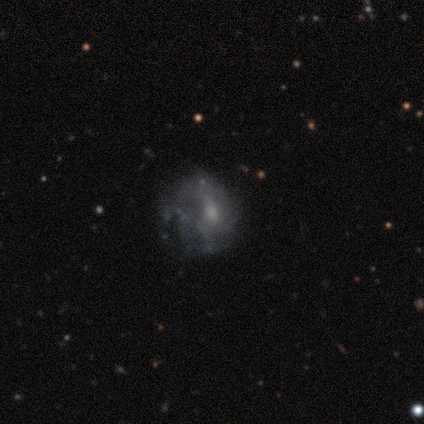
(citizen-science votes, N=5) Smooth or featured: featured or disk — 60% (smooth — 20%)
Edge-on disk: no — 100%
Bar: weak — 67% (no — 33%)
Spiral arms: yes — 100%
Spiral winding: loose — 67% (tight — 33%)
Spiral arm count: can't tell — 67% (1 — 33%)
Bulge size: small — 67% (moderate — 33%)
Merging: minor disturbance — 50% (none — 25%)